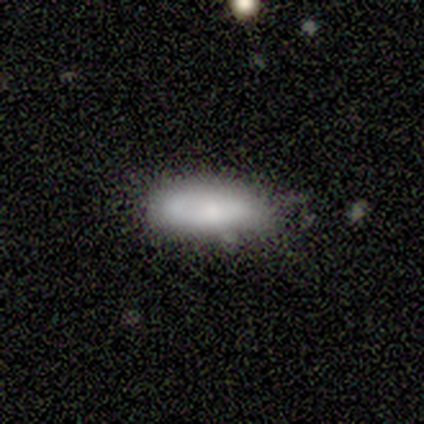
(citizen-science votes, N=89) This appears to be a smooth galaxy with no disk features (82%) that is in between round and cigar-shaped (62%). Merging: none (64%).